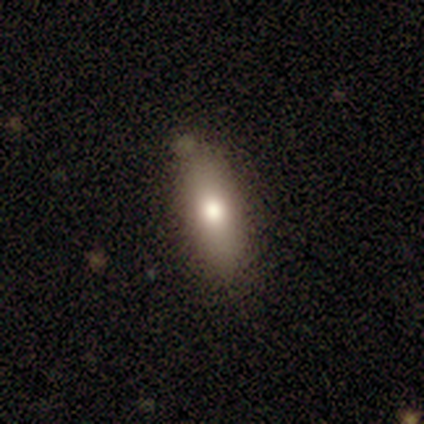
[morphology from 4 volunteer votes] This is clearly a smooth galaxy (100%). How rounded: likely cigar-shaped (75%). Merging: likely none (75%).